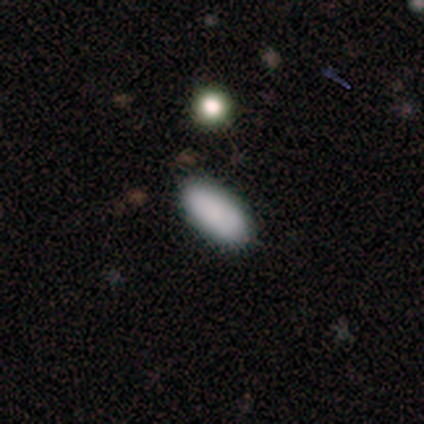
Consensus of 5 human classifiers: Smooth or featured? 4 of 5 (80%) said smooth. How rounded? 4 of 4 (100%) said in between. Merging? 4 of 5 (80%) said none.